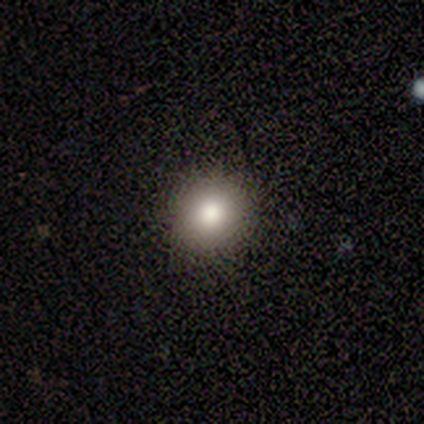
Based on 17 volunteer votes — Smooth or featured? 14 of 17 (82%) said smooth. How rounded? 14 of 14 (100%) said round. Merging? 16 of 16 (100%) said none.